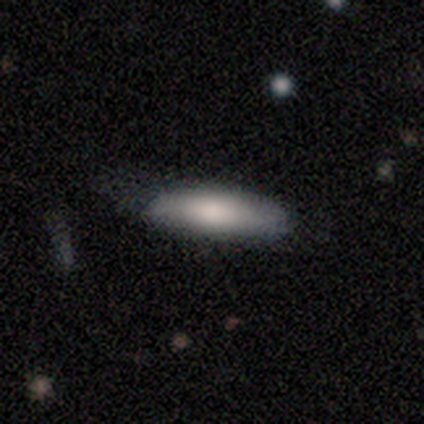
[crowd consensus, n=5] Smooth or featured?
  - smooth: 100% *
  - featured or disk: 0%
  - star or artifact: 0%
How rounded?
  - in between: 80% *
  - cigar-shaped: 20%
  - round: 0%
Merging?
  - minor disturbance: 60% *
  - major disturbance: 40%
  - none: 0%
  - merger: 0%